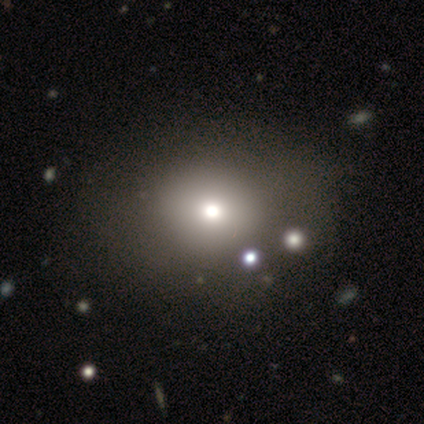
A smooth galaxy with no disk features (100%) that is in between round and cigar-shaped (80%). Merging: none (100%).